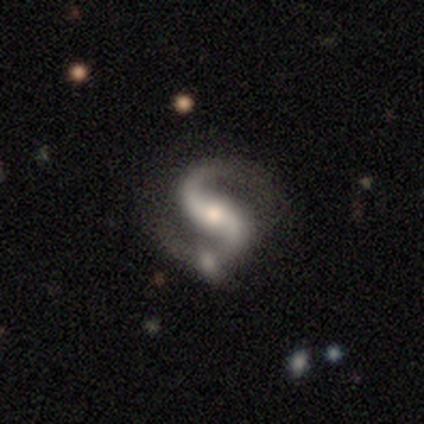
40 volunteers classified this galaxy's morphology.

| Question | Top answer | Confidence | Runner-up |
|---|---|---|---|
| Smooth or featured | featured or disk | 100% | — |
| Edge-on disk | no | 95% | yes (5%) |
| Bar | strong | 42% | weak (32%) |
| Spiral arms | yes | 100% | — |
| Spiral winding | medium | 47% | loose (45%) |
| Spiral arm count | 2 | 92% | can't tell (5%) |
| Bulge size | moderate | 61% | small (26%) |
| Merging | none | 55% | merger (12%) |